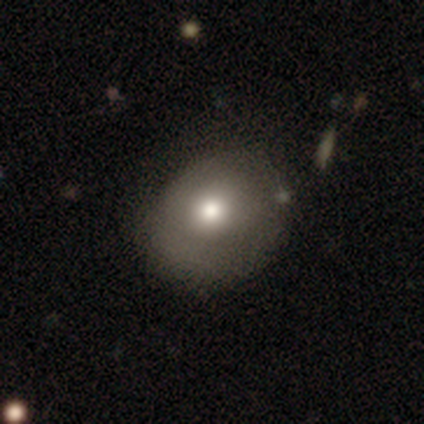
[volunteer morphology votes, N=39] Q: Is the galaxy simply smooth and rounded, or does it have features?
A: smooth — 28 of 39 (72%).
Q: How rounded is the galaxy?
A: round — 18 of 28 (64%).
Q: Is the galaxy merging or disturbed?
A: none — 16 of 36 (44%).